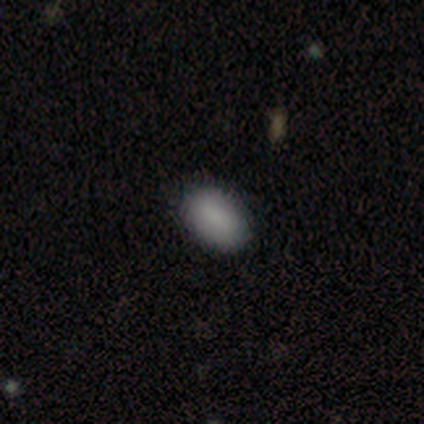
Q: Smooth or featured?
A: smooth (75%); runner-up: star or artifact (25%)
Q: How rounded?
A: in between (100%)
Q: Merging?
A: none (100%)